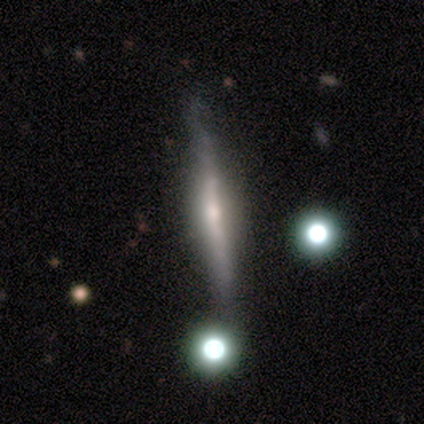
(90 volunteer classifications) Volunteers were most divided on "smooth or featured": featured or disk: 62%, smooth: 26%, star or artifact: 12%. More confident: edge-on disk — yes (98%); merging — none (75%); edge-on bulge — rounded (73%).